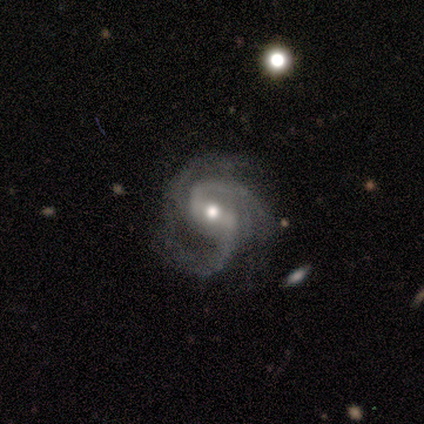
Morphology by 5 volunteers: This is clearly a featured or disk galaxy (100%). It is clearly not viewed edge-on (100%). Bar: likely weak (60%). Spiral arm pattern: clearly yes (100%). Spiral arm count: likely 2 (60%). Spiral winding: clearly medium (100%). Central bulge: clearly moderate (80%). Merging: likely none (60%).